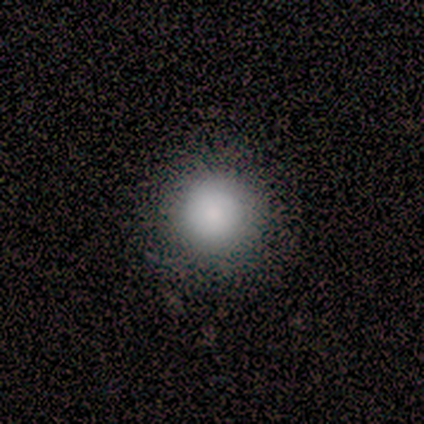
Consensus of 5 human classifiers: This appears to be a smooth galaxy with no disk features (60%) that is round (100%). Merging: none (75%).